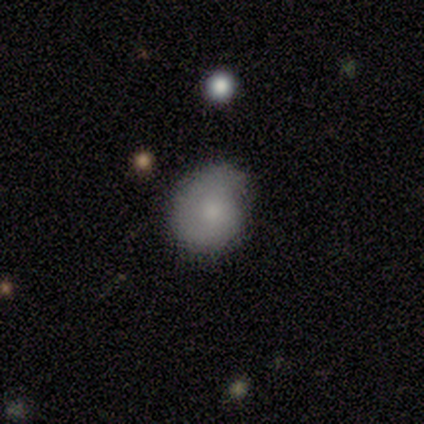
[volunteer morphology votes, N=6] Q: Smooth or featured?
A: smooth (83%); runner-up: featured or disk (17%)
Q: How rounded?
A: round (60%); runner-up: in between (40%)
Q: Merging?
A: none (83%); runner-up: minor disturbance (17%)